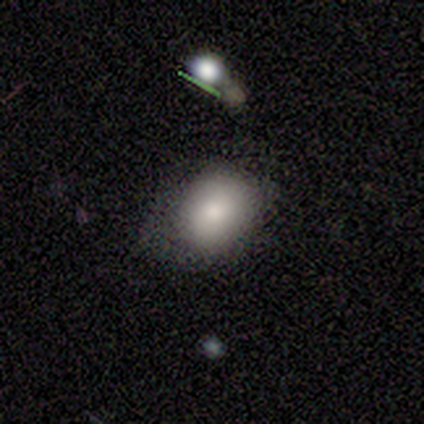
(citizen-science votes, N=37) Volunteers were most divided on "merging": none: 55%, minor disturbance: 42%, major disturbance: 3%, merger: 0%. More confident: smooth or featured — smooth (81%); how rounded — in between (63%).